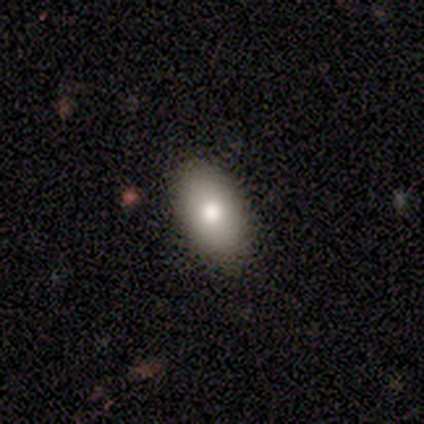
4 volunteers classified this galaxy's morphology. Overall: smooth (75%). How rounded: in between (100%). Merging: none (67%; minor disturbance 33%).